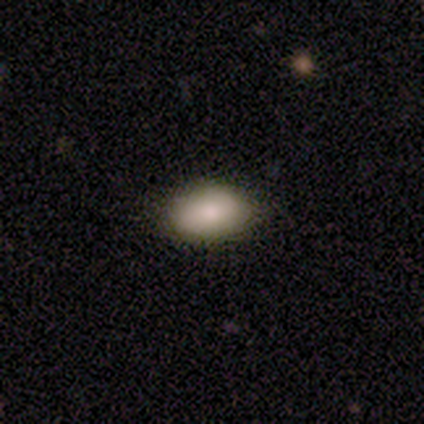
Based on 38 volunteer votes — A smooth galaxy with no disk features (92%) that is in between round and cigar-shaped (94%). Merging: none (81%).